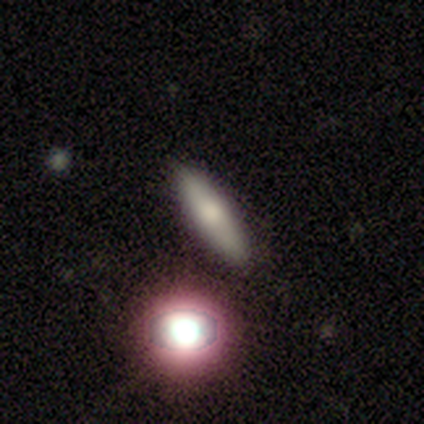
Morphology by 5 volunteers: A smooth galaxy with no disk features (60%) that is in between round and cigar-shaped (100%). Merging: none (100%).